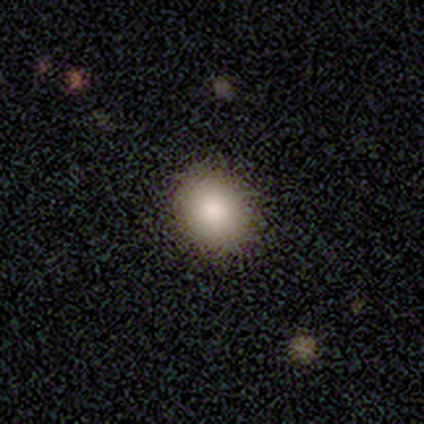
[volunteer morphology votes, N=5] Overall: smooth (80%). How rounded: round (75%). Merging: none (100%).